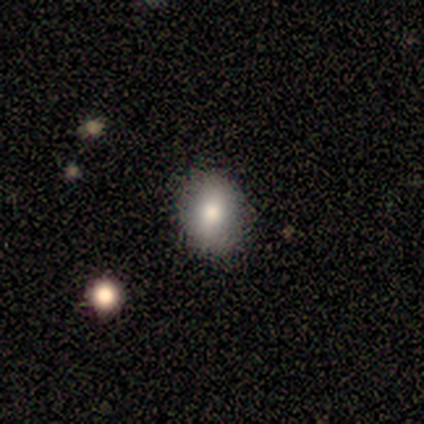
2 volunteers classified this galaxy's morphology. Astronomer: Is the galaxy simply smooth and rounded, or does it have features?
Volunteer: smooth — 100%.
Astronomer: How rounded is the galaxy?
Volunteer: round — 100%.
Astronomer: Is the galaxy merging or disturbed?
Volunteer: none — 100%.